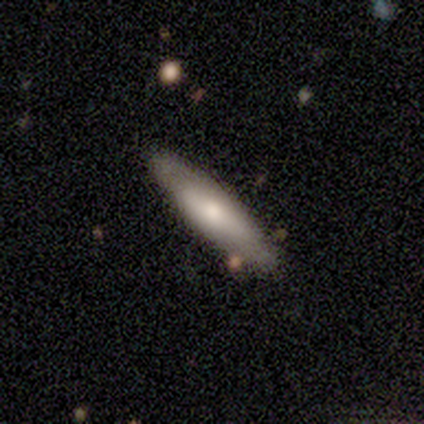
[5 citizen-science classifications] Q: Smooth or featured?
A: smooth (80%); runner-up: featured or disk (20%)
Q: How rounded?
A: in between (50%); tied with: cigar-shaped (50%)
Q: Merging?
A: none (100%)